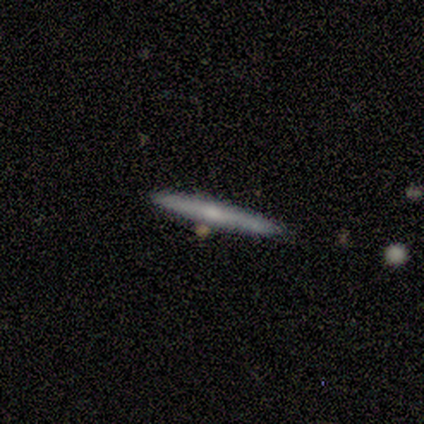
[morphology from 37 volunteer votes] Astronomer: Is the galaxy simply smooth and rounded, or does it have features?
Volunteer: featured or disk — 57% (runner-up: smooth, 35%).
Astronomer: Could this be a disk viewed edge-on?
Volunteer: yes — 90%.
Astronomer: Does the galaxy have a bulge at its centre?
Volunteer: rounded — 79%.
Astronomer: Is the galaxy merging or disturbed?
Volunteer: none — 97%.